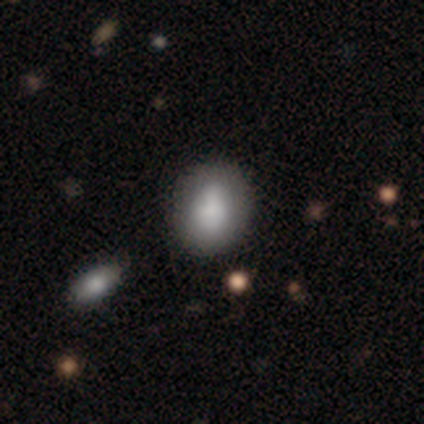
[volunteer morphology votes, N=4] smooth-or-featured: smooth: 100% | featured or disk: 0% | star or artifact: 0%
  how-rounded: round: 50% (tied) | in between: 50% (tied) | cigar-shaped: 0%
  merging: none: 75% | merger: 25% | minor disturbance: 0% | major disturbance: 0%